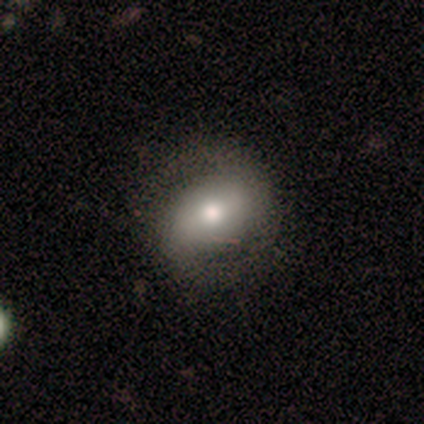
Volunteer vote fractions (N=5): Morphology: type=featured or disk (60%); edge-on=no (100%); bar=strong (33%, tied with weak and no); spiral arms=yes (67%); winding=tight (100%); arm count=2 (100%); bulge=moderate (100%); merging=none (100%).